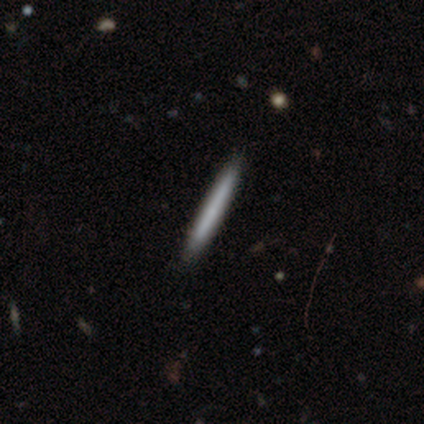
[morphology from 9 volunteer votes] Smooth or featured?
  - smooth: 78% *
  - featured or disk: 22%
  - star or artifact: 0%
How rounded?
  - cigar-shaped: 86% *
  - in between: 14%
  - round: 0%
Merging?
  - none: 67% *
  - minor disturbance: 33%
  - major disturbance: 0%
  - merger: 0%